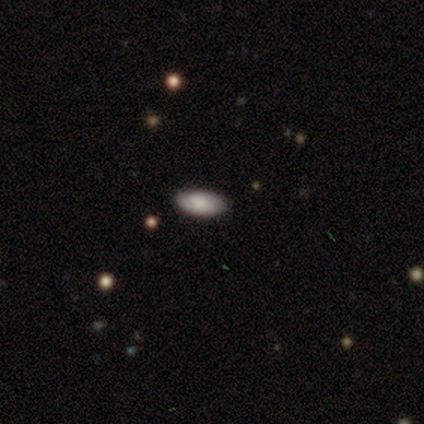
Smooth or featured? 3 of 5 (60%) said smooth. How rounded? 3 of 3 (100%) said in between. Merging? 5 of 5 (100%) said none.